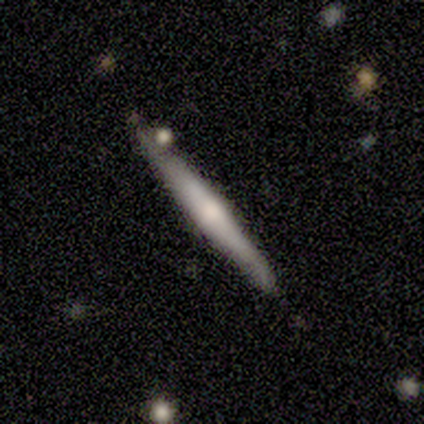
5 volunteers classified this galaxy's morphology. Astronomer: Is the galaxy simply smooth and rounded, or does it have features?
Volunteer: featured or disk — 60% (runner-up: smooth, 40%).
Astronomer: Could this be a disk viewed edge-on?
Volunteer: yes — 100%.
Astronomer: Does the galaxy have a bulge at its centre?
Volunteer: boxy — 33%, tied with none and rounded at 33%.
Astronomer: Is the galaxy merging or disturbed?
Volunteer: none — 80%.